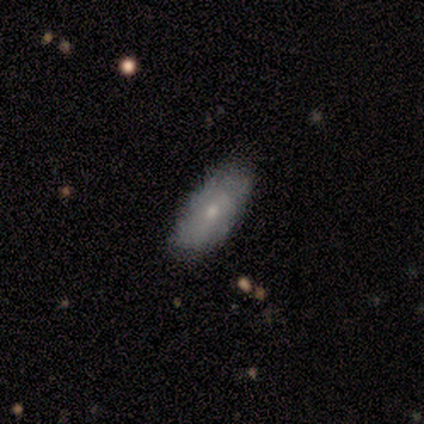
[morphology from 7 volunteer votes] smooth_or_featured: featured or disk (p=0.57) [alt: smooth p=0.43]
disk_edge_on: no (p=1.00)
bar: no (p=1.00)
has_spiral_arms: no (p=0.75) [alt: yes p=0.25]
bulge_size: small (p=0.75) [alt: moderate p=0.25]
merging: none (p=0.86) [alt: minor disturbance p=0.14]